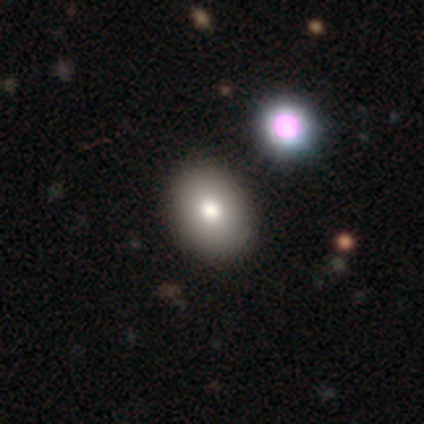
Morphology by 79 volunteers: Overall: smooth (80%). How rounded: in between (75%). Merging: none (39%; merger 19%).